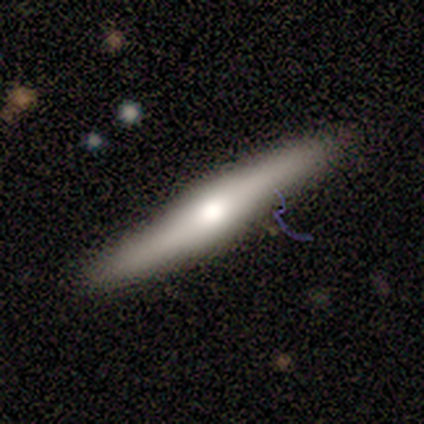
Q: Smooth or featured?
A: featured or disk (60%); runner-up: smooth (40%)
Q: Edge-on disk?
A: yes (100%)
Q: Edge-on bulge?
A: rounded (100%)
Q: Merging?
A: none (100%)